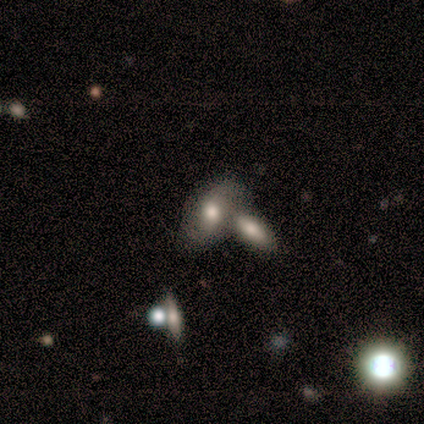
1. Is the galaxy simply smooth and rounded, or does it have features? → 50% smooth (tied), 50% featured or disk (tied), 0% star or artifact.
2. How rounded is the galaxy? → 100% in between, 0% round, 0% cigar-shaped.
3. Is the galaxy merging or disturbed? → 50% none (tied), 50% merger (tied), 0% minor disturbance, 0% major disturbance.